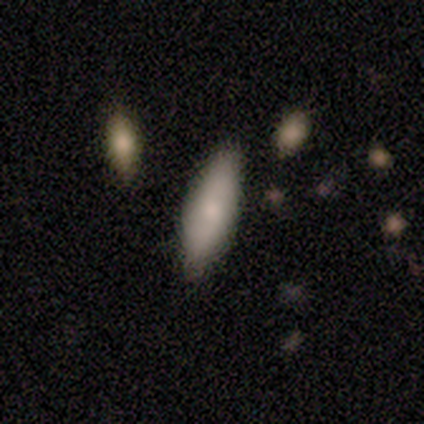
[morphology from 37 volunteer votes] smooth-or-featured: smooth: 76% | featured or disk: 14% | star or artifact: 11%
  how-rounded: in between: 61% | cigar-shaped: 39% | round: 0%
  merging: none: 76% | minor disturbance: 18% | merger: 6% | major disturbance: 0%